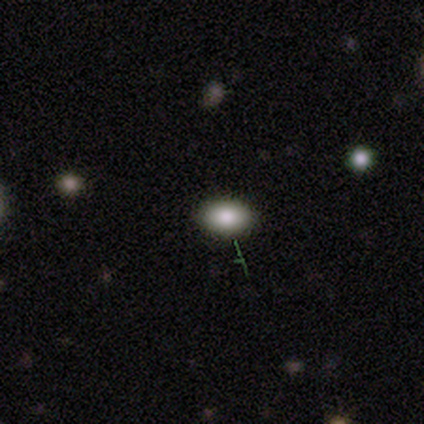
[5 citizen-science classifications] A smooth galaxy with no disk features (60%) that is in between round and cigar-shaped (100%). Merging: none (60%).